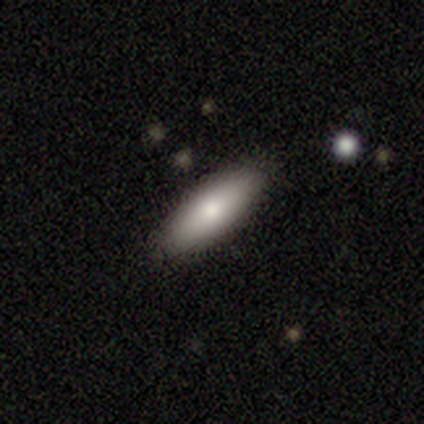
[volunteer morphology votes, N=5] A smooth galaxy with no disk features (80%) that is in between round and cigar-shaped (50%, tied with cigar-shaped).

Vote fractions:
- Smooth or featured? smooth: 80% / featured or disk: 20% / star or artifact: 0%
- How rounded? in between: 50% (tied) / cigar-shaped: 50% (tied) / round: 0%
- Merging? none: 100% / minor disturbance: 0% / major disturbance: 0% / merger: 0%